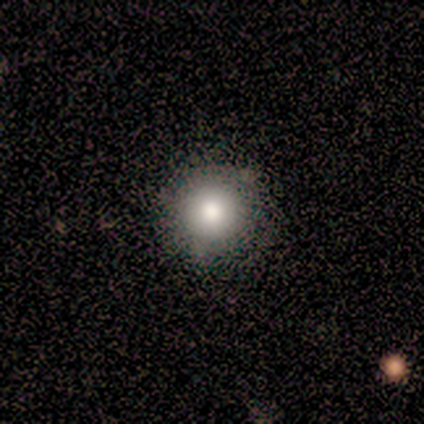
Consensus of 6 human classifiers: smooth-or-featured: smooth: 67% | star or artifact: 33% | featured or disk: 0%
  how-rounded: round: 100% | in between: 0% | cigar-shaped: 0%
  merging: none: 100% | minor disturbance: 0% | major disturbance: 0% | merger: 0%